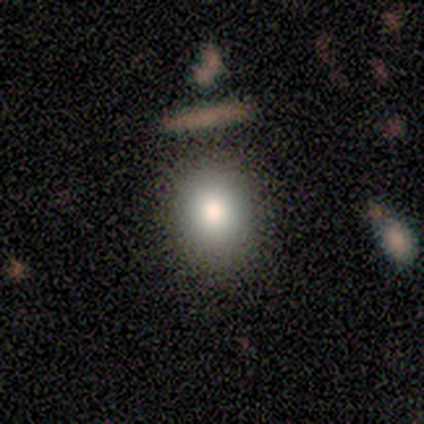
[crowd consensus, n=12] Smooth or featured? smooth (100%)
How rounded? round (67%)
Merging? none (83%)